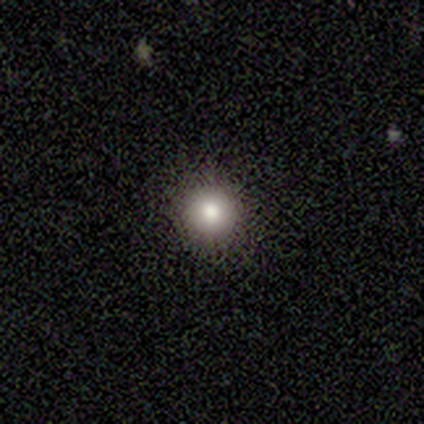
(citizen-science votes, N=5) Smooth or featured? 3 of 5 (60%) said smooth. How rounded? 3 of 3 (100%) said round. Merging? 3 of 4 (75%) said none.